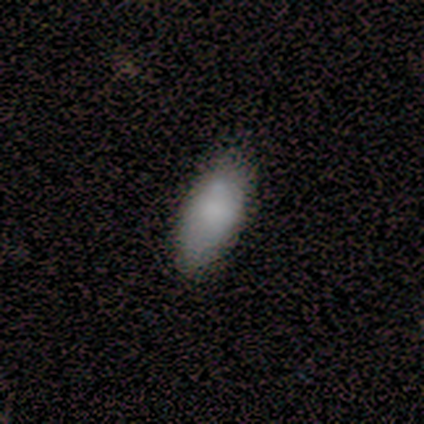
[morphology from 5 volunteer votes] Overall: smooth (100%). How rounded: in between (80%). Merging: none (80%).